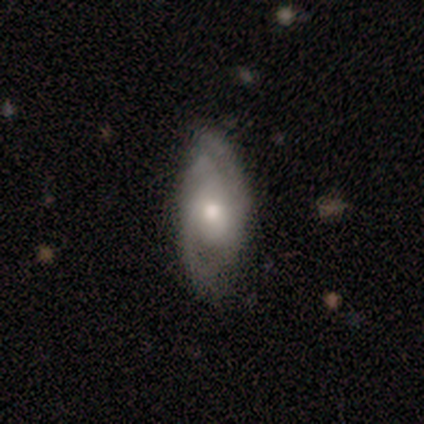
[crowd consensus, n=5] A featured or disk galaxy (100%) with a weak bar (60%), 2 (100%) medium (50%) spiral arms (80%) and a small central bulge (60%). Merging: none (100%).